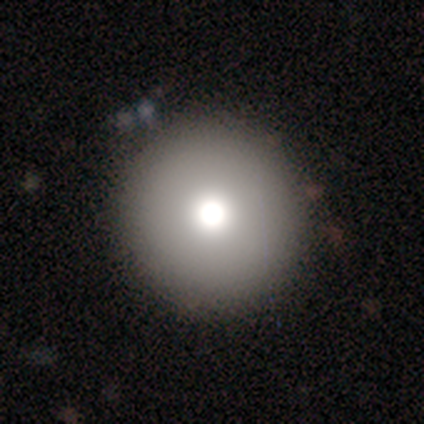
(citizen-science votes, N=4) This appears to be a smooth galaxy with no disk features (50%, tied with star or artifact) that is round (100%). Merging: none (100%).